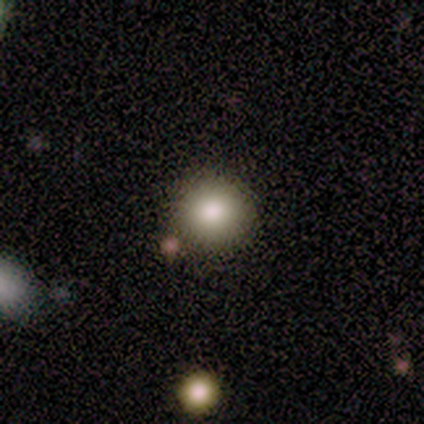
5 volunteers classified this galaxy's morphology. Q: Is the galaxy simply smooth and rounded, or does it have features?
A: smooth — 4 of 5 (80%).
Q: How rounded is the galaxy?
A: round — 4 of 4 (100%).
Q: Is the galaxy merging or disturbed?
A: none — 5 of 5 (100%).